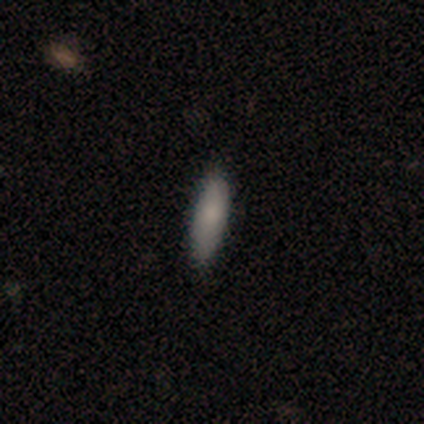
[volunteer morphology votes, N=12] Smooth or featured?
  - smooth: 83% *
  - featured or disk: 17%
  - star or artifact: 0%
How rounded?
  - in between: 70% *
  - cigar-shaped: 30%
  - round: 0%
Merging?
  - none: 92% *
  - minor disturbance: 8%
  - major disturbance: 0%
  - merger: 0%